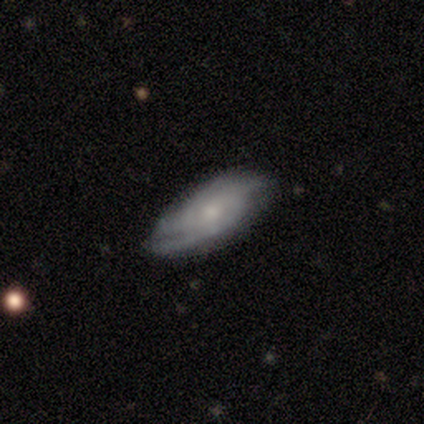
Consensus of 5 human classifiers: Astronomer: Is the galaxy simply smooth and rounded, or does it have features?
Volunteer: featured or disk — 80%.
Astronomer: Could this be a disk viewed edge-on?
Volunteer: no — 100%.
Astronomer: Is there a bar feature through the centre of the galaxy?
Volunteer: no — 75%.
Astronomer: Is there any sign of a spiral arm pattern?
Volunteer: yes — 100%.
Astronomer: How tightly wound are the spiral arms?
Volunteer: tight — 50%, tied with medium at 50%.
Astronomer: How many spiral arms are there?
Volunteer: can't tell — 75%.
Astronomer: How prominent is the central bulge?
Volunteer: small — 50%.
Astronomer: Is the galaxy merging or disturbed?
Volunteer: none — 80%.